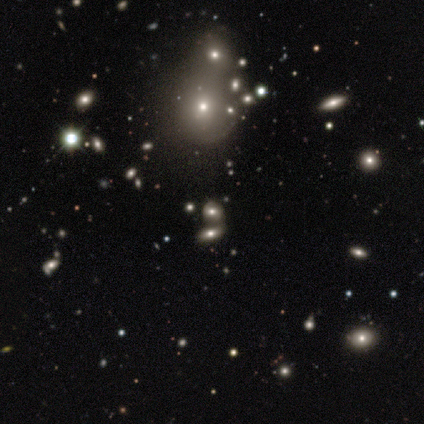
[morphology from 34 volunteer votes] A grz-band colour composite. It shows a smooth galaxy with no disk features (47%) that is round (56%). Merging: merger (58%).